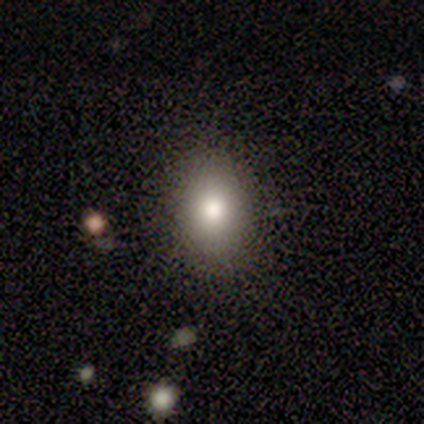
Smooth or featured? smooth (80%)
How rounded? round (50%, tied with in between)
Merging? none (100%)